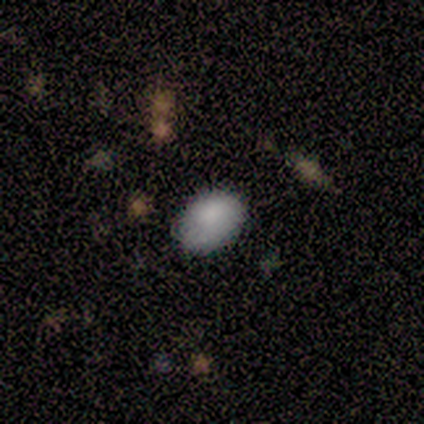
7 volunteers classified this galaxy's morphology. smooth_or_featured: smooth (p=1.00)
how_rounded: in between (p=1.00)
merging: none (p=0.57) [alt: minor disturbance p=0.43]